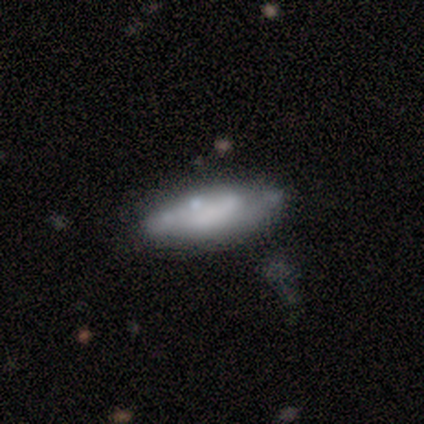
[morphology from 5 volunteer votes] Q: Smooth or featured?
A: smooth (100%)
Q: How rounded?
A: in between (100%)
Q: Merging?
A: none (80%); runner-up: minor disturbance (20%)